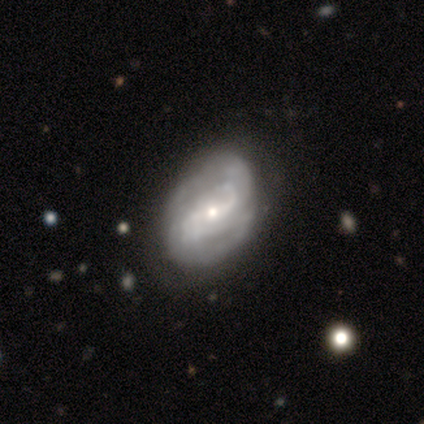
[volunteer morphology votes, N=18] Smooth or featured: featured or disk — 78% (smooth — 11%)
Edge-on disk: no — 100%
Bar: weak — 71% (strong — 14%)
Spiral arms: yes — 93% (no — 7%)
Spiral winding: tight — 46% (medium — 31%)
Spiral arm count: 2 — 69% (can't tell — 15%)
Bulge size: moderate — 57% (small — 43%)
Merging: none — 56% (minor disturbance — 44%)